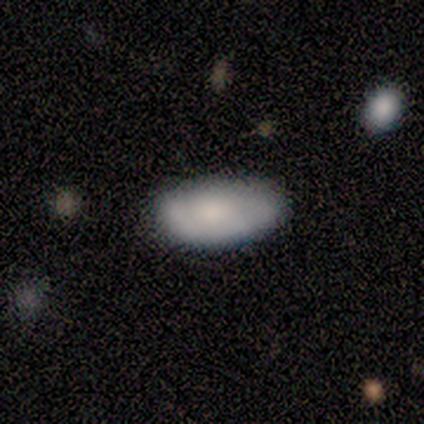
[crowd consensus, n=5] smooth 100%, featured or disk 0%, star or artifact 0%. Down the decision tree: how rounded — in between (100%); merging — none (80%).